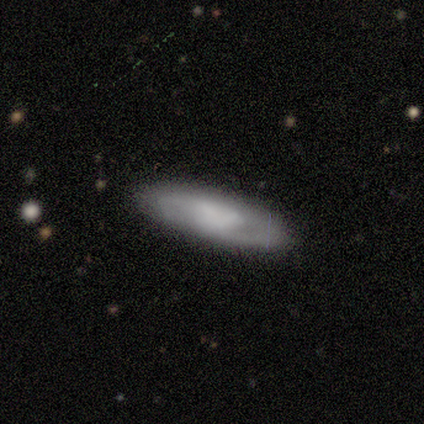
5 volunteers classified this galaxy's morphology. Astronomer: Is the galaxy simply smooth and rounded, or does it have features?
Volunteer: smooth — 60% (runner-up: featured or disk, 40%).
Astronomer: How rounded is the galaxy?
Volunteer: in between — 67%.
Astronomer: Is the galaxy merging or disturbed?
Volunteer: none — 100%.